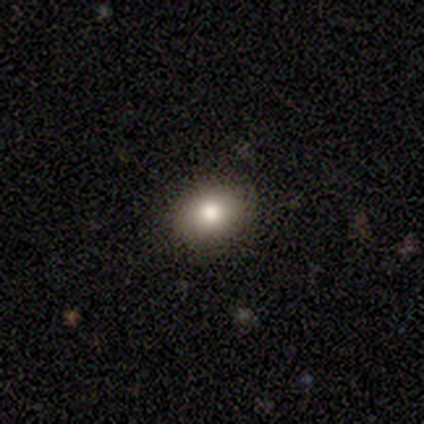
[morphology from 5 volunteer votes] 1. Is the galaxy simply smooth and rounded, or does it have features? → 80% smooth, 20% star or artifact, 0% featured or disk.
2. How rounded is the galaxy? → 50% round (tied), 50% in between (tied), 0% cigar-shaped.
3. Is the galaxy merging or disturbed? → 100% none, 0% minor disturbance, 0% major disturbance, 0% merger.